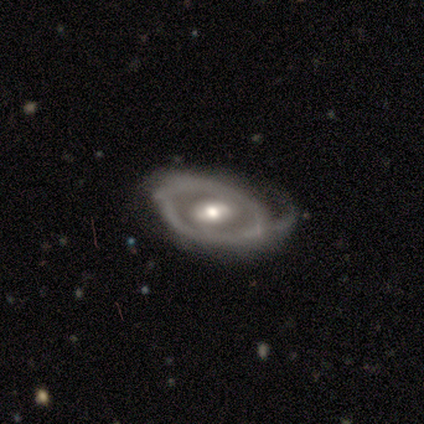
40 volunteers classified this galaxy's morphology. type=featured or disk (82%); edge-on=no (97%); bar=weak (50%); spiral arms=yes (53%); winding=tight (41%); arm count=2 (35%); bulge=moderate (69%); merging=major disturbance (44%).